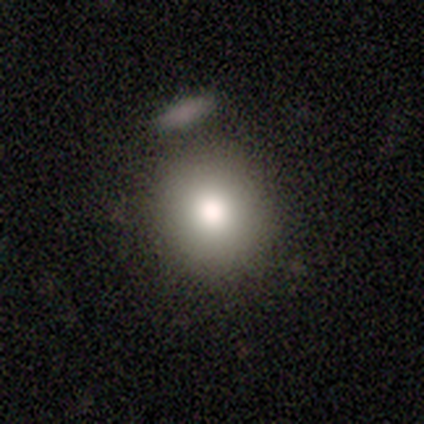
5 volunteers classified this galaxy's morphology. Smooth or featured? smooth (100%)
How rounded? round (80%)
Merging? none (100%)